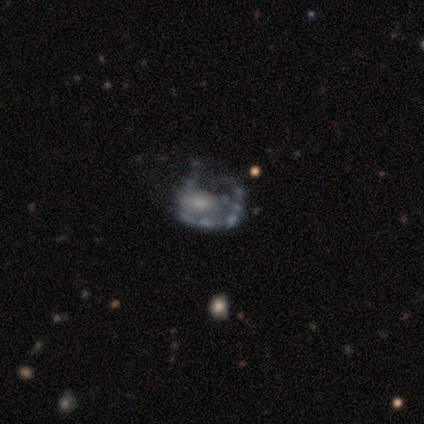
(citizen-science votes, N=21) Morphology: type=featured or disk (52%); edge-on=no (100%); bar=no (73%); spiral arms=no (64%); bulge=moderate (45%, tied with none); merging=minor disturbance (40%).